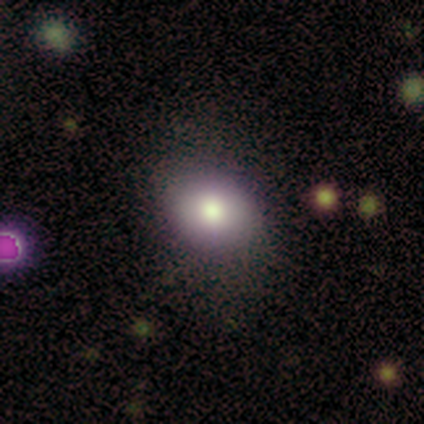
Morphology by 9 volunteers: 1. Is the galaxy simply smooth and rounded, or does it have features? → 89% smooth, 11% featured or disk, 0% star or artifact.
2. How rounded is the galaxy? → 62% in between, 38% round, 0% cigar-shaped.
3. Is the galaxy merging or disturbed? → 100% none, 0% minor disturbance, 0% major disturbance, 0% merger.